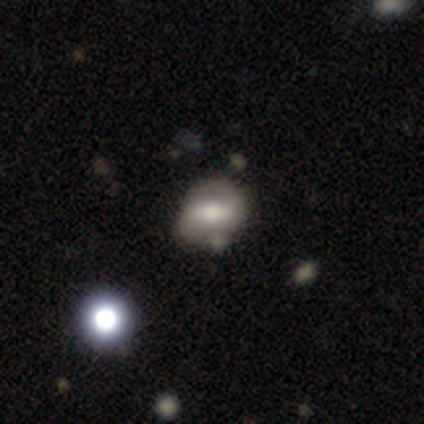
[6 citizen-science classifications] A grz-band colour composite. It shows a featured or disk galaxy (67%) with a strong bar (33%, tied with weak and no), 2 (100%) tight (100%) spiral arms (67%) and a small central bulge (67%). Merging: none (50%).